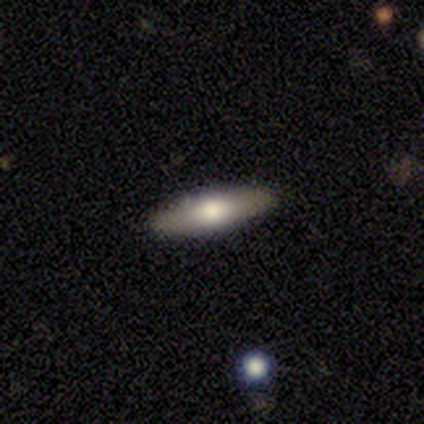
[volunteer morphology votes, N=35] smooth 51%, featured or disk 43%, star or artifact 6%. Down the decision tree: how rounded — in between (56%); merging — none (97%).